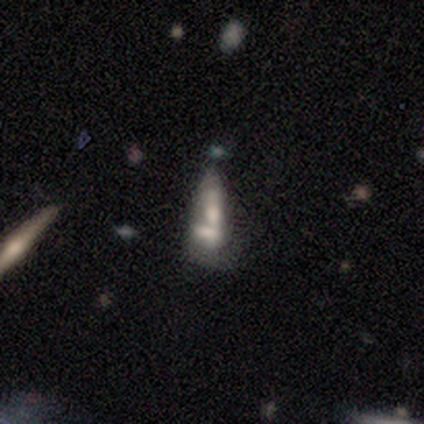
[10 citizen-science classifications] Smooth or featured? featured or disk (60%)
Edge-on disk? no (100%)
Bar? no (83%)
Spiral arms? no (100%)
Bulge size? none (50%)
Merging? merger (90%)